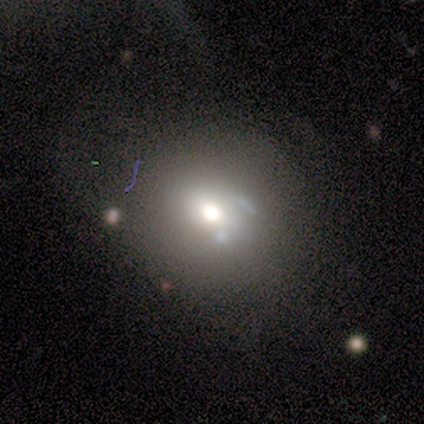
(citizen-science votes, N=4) smooth_or_featured: smooth (p=0.50) [tied with: featured or disk p=0.50]
how_rounded: round (p=1.00)
merging: none (p=0.75) [alt: merger p=0.25]